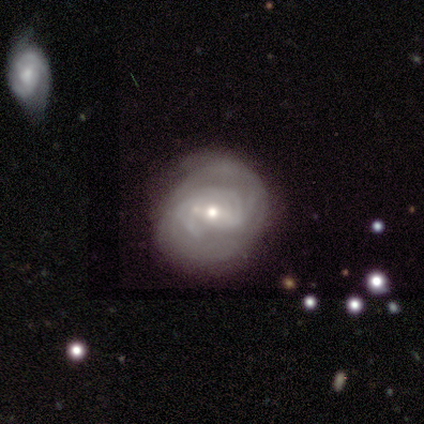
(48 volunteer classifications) Morphology: type=featured or disk (83%); edge-on=no (100%); bar=weak (60%); spiral arms=yes (90%); winding=tight (61%); arm count=can't tell (56%); bulge=moderate (65%); merging=none (78%).